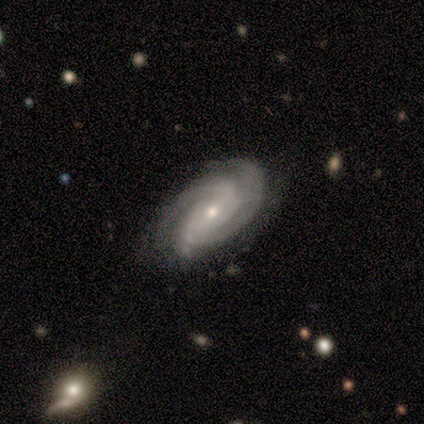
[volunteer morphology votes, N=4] Smooth or featured? featured or disk (100%)
Edge-on disk? no (100%)
Bar? no (75%)
Spiral arms? yes (100%)
Spiral winding? tight (75%)
Spiral arm count? 4 (50%)
Bulge size? moderate (50%, tied with small)
Merging? none (75%)